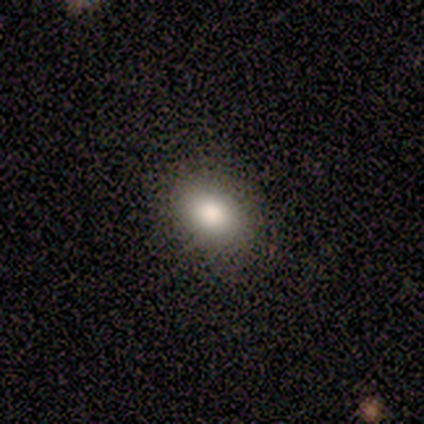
smooth 100%, featured or disk 0%, star or artifact 0%. Down the decision tree: how rounded — round (60%); merging — none (100%).